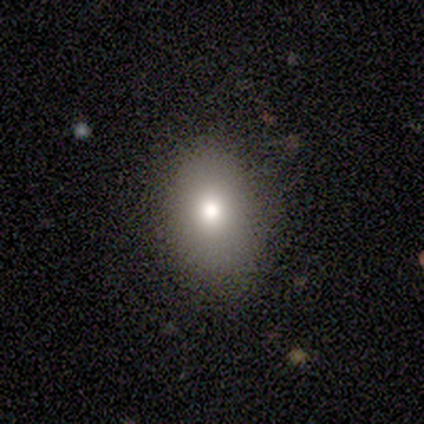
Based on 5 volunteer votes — This appears to be a smooth galaxy with no disk features (40%, tied with star or artifact) that is in between round and cigar-shaped (100%). Merging: none (67%).